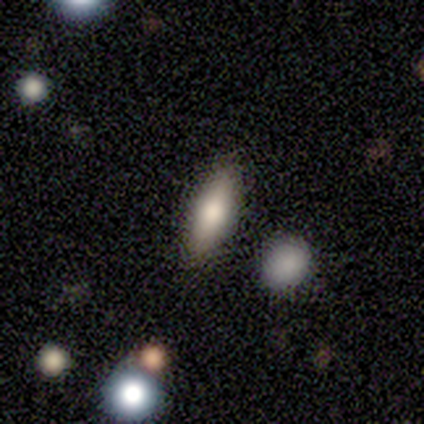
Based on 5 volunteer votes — smooth-or-featured: smooth: 80% | featured or disk: 20% | star or artifact: 0%
  how-rounded: in between: 50% (tied) | cigar-shaped: 50% (tied) | round: 0%
  merging: none: 80% | minor disturbance: 20% | major disturbance: 0% | merger: 0%